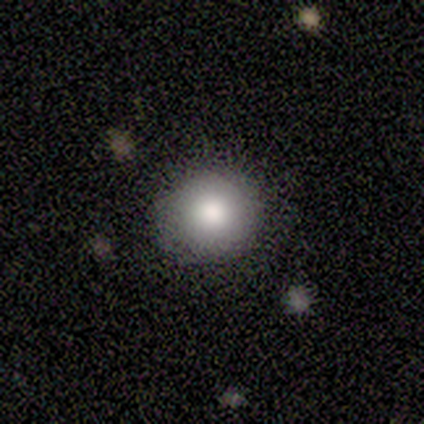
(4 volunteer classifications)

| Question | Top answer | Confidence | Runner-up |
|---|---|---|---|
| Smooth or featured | smooth | 75% | star or artifact (25%) |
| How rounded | round | 67% | in between (33%) |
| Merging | none | 100% | — |